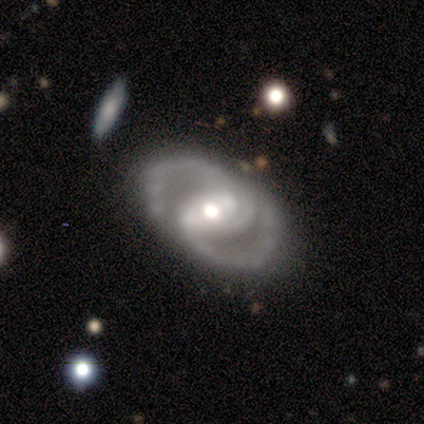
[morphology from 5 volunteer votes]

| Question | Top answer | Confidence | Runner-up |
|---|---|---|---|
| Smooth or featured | featured or disk | 100% | — |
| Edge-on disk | no | 80% | yes (20%) |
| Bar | strong | 50% | tied: no (50%) |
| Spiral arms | yes | 75% | no (25%) |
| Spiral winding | medium | 67% | tight (33%) |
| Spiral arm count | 2 | 33% | tied: 3 (33%), can't tell (33%) |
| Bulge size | moderate | 75% | small (25%) |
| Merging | none | 100% | — |